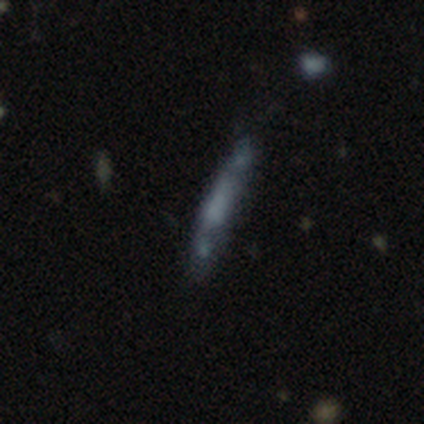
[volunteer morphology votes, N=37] Smooth or featured? smooth (46%)
How rounded? cigar-shaped (100%)
Merging? none (74%)